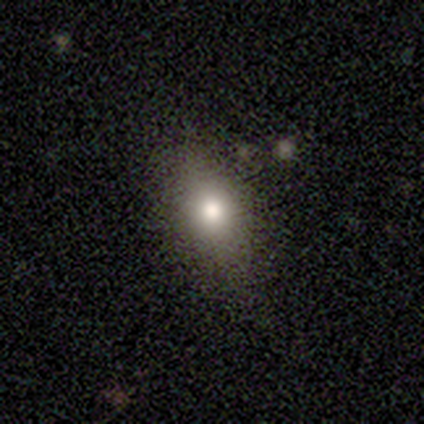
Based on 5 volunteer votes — smooth_or_featured: smooth (p=0.60) [alt: featured or disk p=0.40]
how_rounded: round (p=0.67) [alt: in between p=0.33]
merging: none (p=0.80) [alt: minor disturbance p=0.20]